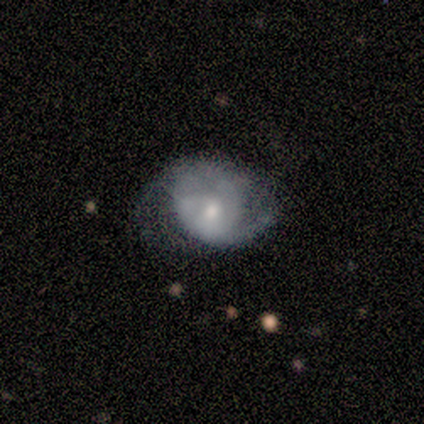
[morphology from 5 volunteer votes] Smooth or featured: smooth — 60% (featured or disk — 40%)
How rounded: in between — 67% (round — 33%)
Merging: minor disturbance — 40% (tied with major disturbance — 40%)